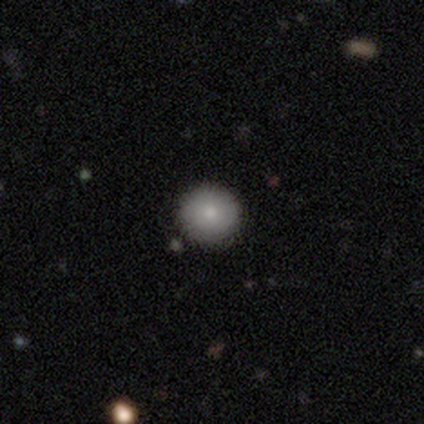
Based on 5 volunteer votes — Smooth or featured: smooth — 80% (featured or disk — 20%)
How rounded: round — 100%
Merging: none — 80% (merger — 20%)